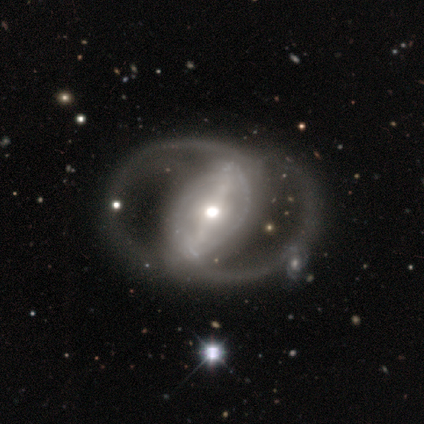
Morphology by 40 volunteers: Smooth or featured: featured or disk — 92% (smooth — 5%)
Edge-on disk: no — 97% (yes — 3%)
Bar: strong — 72% (weak — 17%)
Spiral arms: yes — 72% (no — 28%)
Spiral winding: medium — 46% (loose — 38%)
Spiral arm count: 2 — 73% (can't tell — 19%)
Bulge size: moderate — 61% (small — 22%)
Merging: none — 59% (major disturbance — 18%)